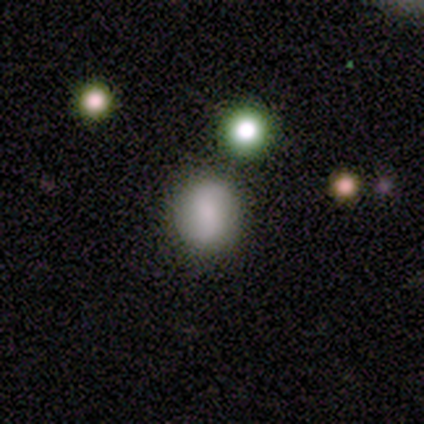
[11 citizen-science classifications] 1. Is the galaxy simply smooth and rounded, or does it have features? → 82% smooth, 18% featured or disk, 0% star or artifact.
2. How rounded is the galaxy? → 56% round, 44% in between, 0% cigar-shaped.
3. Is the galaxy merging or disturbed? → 73% none, 18% minor disturbance, 9% merger, 0% major disturbance.